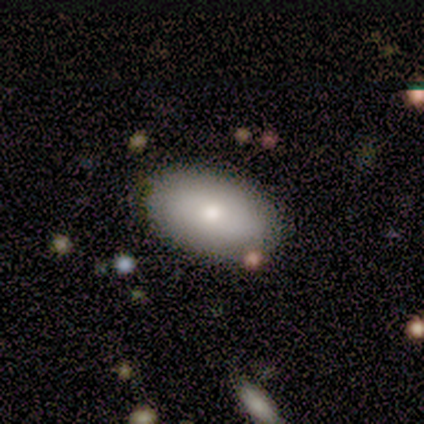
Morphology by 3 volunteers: A featured or disk galaxy (67%) with no bar (100%), no spiral arms (100%) and a moderate central bulge (100%).

Vote fractions:
- Smooth or featured? featured or disk: 67% / smooth: 33% / star or artifact: 0%
- Edge-on disk? no: 100% / yes: 0%
- Bar? no: 100% / strong: 0% / weak: 0%
- Spiral arms? no: 100% / yes: 0%
- Bulge size? moderate: 100% / dominant: 0% / large: 0% / small: 0% / none: 0%
- Merging? none: 100% / minor disturbance: 0% / major disturbance: 0% / merger: 0%